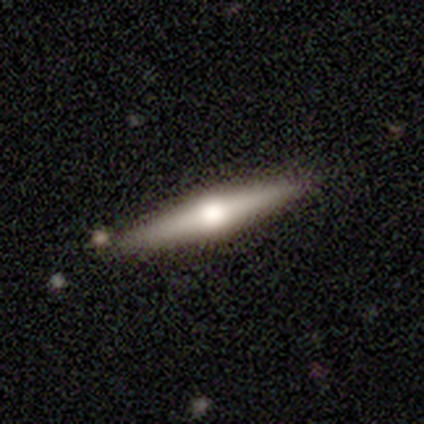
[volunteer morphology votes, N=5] This is likely a smooth galaxy (60%). How rounded: clearly cigar-shaped (100%). Merging: clearly none (100%).